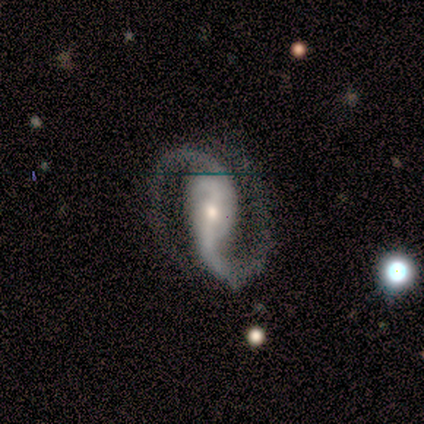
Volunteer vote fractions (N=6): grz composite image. It shows a featured or disk galaxy (100%) with a strong bar (50%), 2 (100%) medium (50%) spiral arms (100%) and a moderate central bulge (83%). Merging: none (83%).